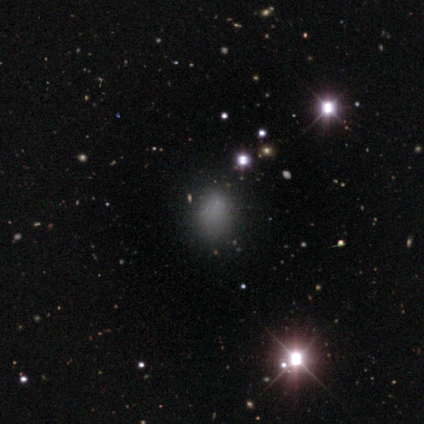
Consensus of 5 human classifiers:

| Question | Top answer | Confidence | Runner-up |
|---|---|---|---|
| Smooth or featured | smooth | 80% | star or artifact (20%) |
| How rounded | in between | 75% | round (25%) |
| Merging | none | 100% | — |